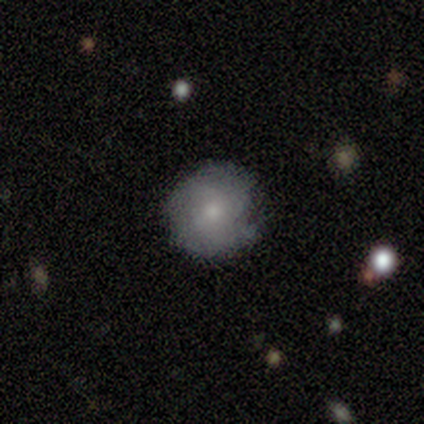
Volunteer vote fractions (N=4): Smooth or featured?
  - smooth: 75% *
  - featured or disk: 25%
  - star or artifact: 0%
How rounded?
  - round: 100% *
  - in between: 0%
  - cigar-shaped: 0%
Merging?
  - none: 50% *
  - minor disturbance: 25%
  - major disturbance: 25%
  - merger: 0%